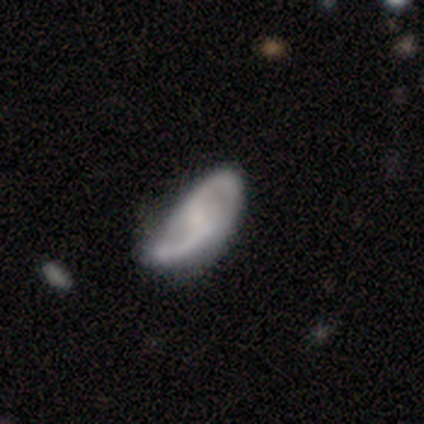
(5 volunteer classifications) Smooth or featured: featured or disk — 60% (smooth — 40%)
Edge-on disk: no — 100%
Bar: no — 67% (weak — 33%)
Spiral arms: yes — 67% (no — 33%)
Spiral winding: tight — 100%
Spiral arm count: 2 — 100%
Bulge size: none — 100%
Merging: none — 60% (minor disturbance — 20%)